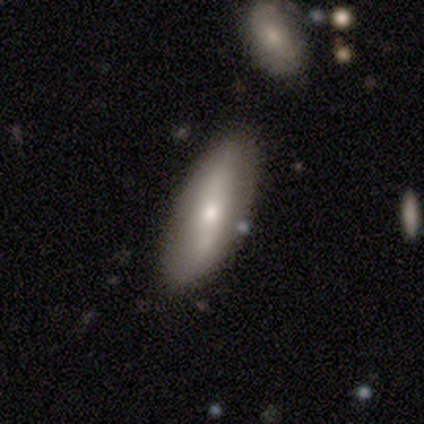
Smooth or featured: smooth — 63% (featured or disk — 31%)
How rounded: in between — 58% (cigar-shaped — 40%)
Merging: none — 74% (minor disturbance — 20%)